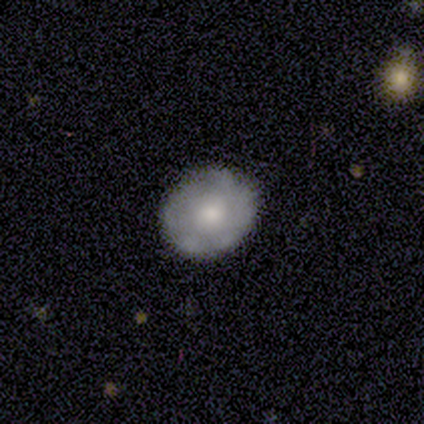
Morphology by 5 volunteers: Overall: smooth (60%; featured or disk 20%). How rounded: round (67%; in between 33%). Merging: none (75%).